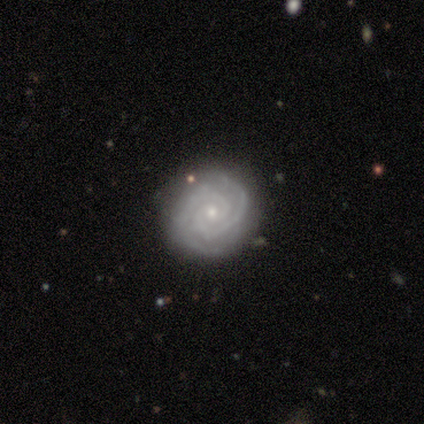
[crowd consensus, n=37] A featured or disk galaxy (92%) with no bar (68%), 2 (74%) tight (88%) spiral arms (100%) and a small central bulge (79%).

Vote fractions:
- Smooth or featured? featured or disk: 92% / star or artifact: 8% / smooth: 0%
- Edge-on disk? no: 100% / yes: 0%
- Bar? no: 68% / weak: 21% / strong: 12%
- Spiral arms? yes: 100% / no: 0%
- Spiral winding? tight: 88% / medium: 9% / loose: 3%
- Spiral arm count? 2: 74% / 3: 15% / 4: 6% / can't tell: 6% / 1: 0% / more than 4: 0%
- Bulge size? small: 79% / moderate: 15% / none: 6% / dominant: 0% / large: 0%
- Merging? none: 82% / minor disturbance: 15% / major disturbance: 3% / merger: 0%